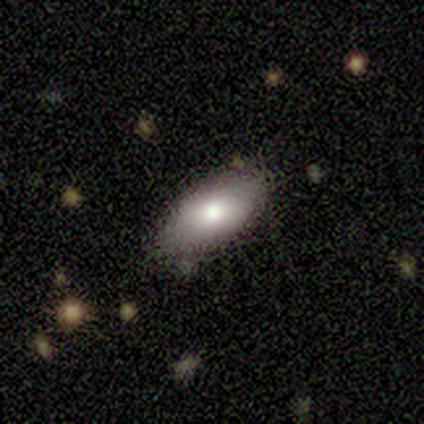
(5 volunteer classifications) smooth 60%, featured or disk 40%, star or artifact 0%. Down the decision tree: how rounded — in between (100%); merging — none (80%).